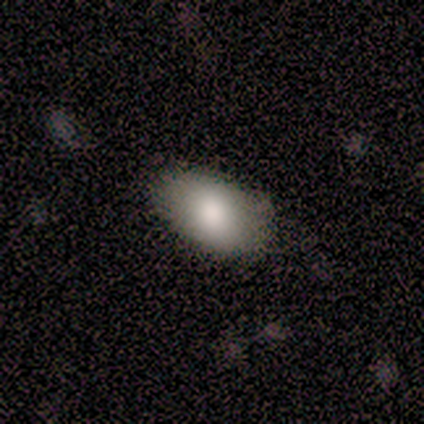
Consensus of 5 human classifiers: Morphology: type=smooth (80%); roundness=in between (75%); merging=none (100%).